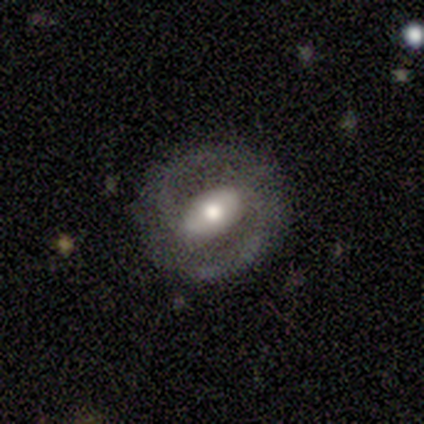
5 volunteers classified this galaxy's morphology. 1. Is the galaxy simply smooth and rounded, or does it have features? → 80% featured or disk, 20% smooth, 0% star or artifact.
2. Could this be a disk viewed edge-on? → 100% no, 0% yes.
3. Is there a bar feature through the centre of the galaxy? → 50% strong (tied), 50% no (tied), 0% weak.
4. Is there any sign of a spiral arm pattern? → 75% yes, 25% no.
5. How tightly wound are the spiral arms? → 33% tight (tied), 33% medium (tied), 33% loose (tied).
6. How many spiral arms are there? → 100% 2, 0% 1, 0% 3, 0% 4, 0% more than 4, 0% can't tell.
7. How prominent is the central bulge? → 50% moderate, 25% large, 25% small, 0% dominant, 0% none.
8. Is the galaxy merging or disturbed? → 100% none, 0% minor disturbance, 0% major disturbance, 0% merger.